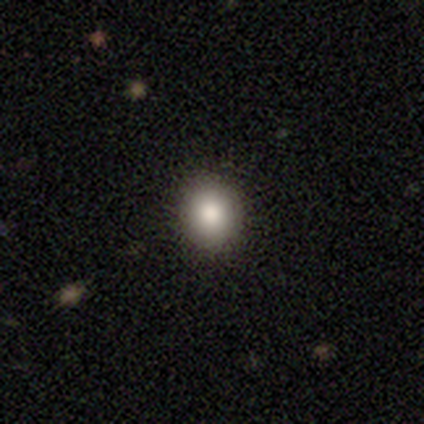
This appears to be a smooth galaxy with no disk features (100%) that is in between round and cigar-shaped (60%). Merging: none (100%).